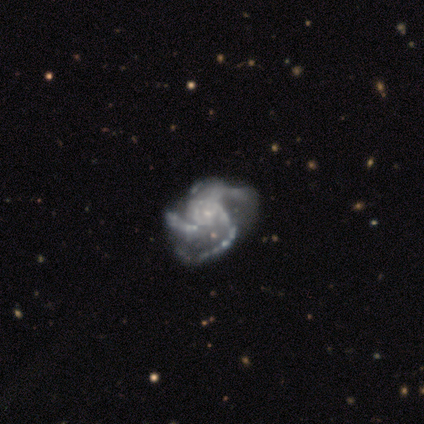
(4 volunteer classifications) Morphology: type=featured or disk (100%); edge-on=no (100%); bar=no (100%); spiral arms=yes (100%); winding=medium (75%); arm count=3 (75%); bulge=small (100%); merging=major disturbance (50%).